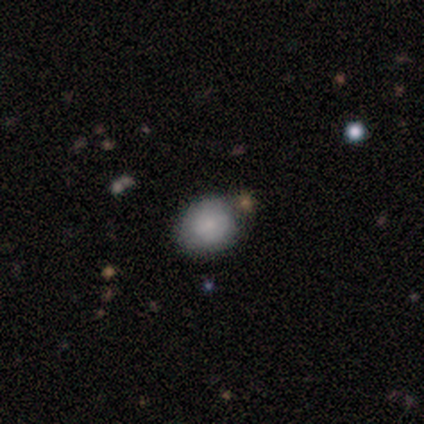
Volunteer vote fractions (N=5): Volunteers were most divided on "merging": none: 80%, minor disturbance: 20%, major disturbance: 0%, merger: 0%. More confident: smooth or featured — smooth (100%); how rounded — round (100%).